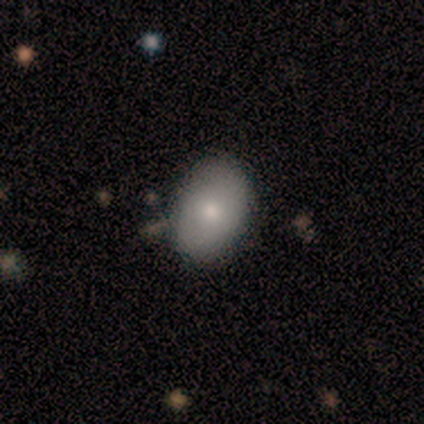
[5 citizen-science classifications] Morphology: type=smooth (100%); roundness=in between (60%); merging=none (100%).